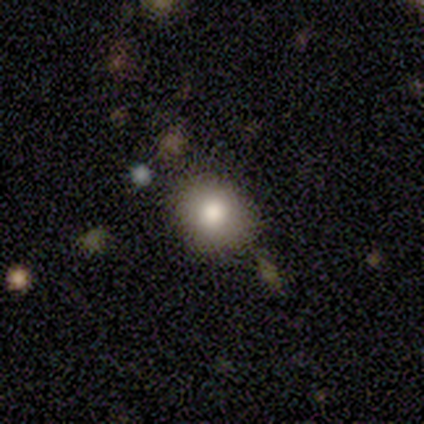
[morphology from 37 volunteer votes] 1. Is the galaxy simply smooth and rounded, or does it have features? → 70% smooth, 16% featured or disk, 14% star or artifact.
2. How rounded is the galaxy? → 77% round, 23% in between, 0% cigar-shaped.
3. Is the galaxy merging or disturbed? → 81% none, 16% minor disturbance, 3% merger, 0% major disturbance.